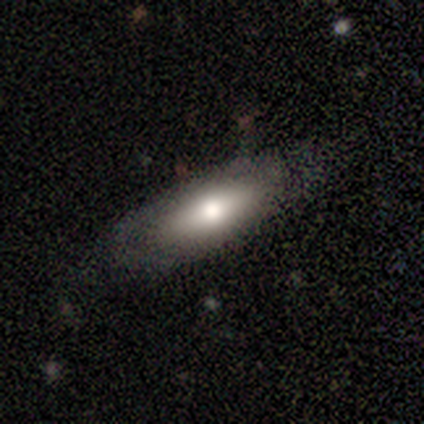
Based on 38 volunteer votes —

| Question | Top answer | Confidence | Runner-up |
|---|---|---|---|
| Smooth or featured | smooth | 47% | featured or disk (45%) |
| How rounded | in between | 67% | cigar-shaped (33%) |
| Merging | none | 66% | minor disturbance (26%) |